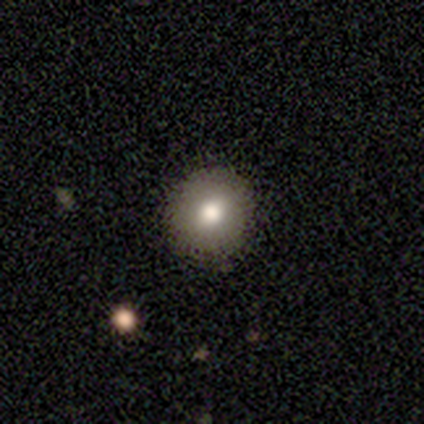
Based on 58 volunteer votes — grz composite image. It shows a smooth galaxy with no disk features (76%) that is round (100%). Merging: none (98%).